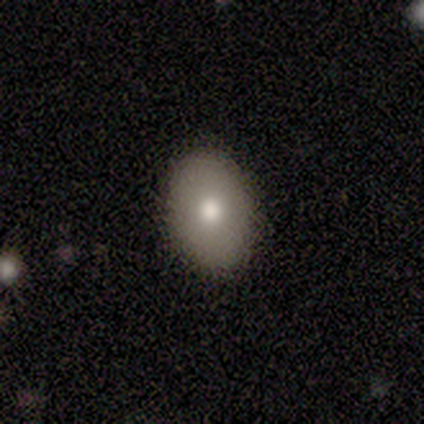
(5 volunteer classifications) Smooth or featured?
  - smooth: 80% *
  - star or artifact: 20%
  - featured or disk: 0%
How rounded?
  - in between: 100% *
  - round: 0%
  - cigar-shaped: 0%
Merging?
  - none: 100% *
  - minor disturbance: 0%
  - major disturbance: 0%
  - merger: 0%